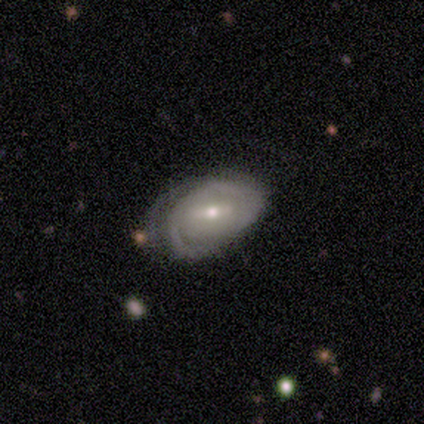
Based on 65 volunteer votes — Smooth or featured? featured or disk (74%)
Edge-on disk? no (96%)
Bar? weak (54%)
Spiral arms? yes (76%)
Spiral winding? tight (66%)
Spiral arm count? 2 (43%)
Bulge size? moderate (52%)
Merging? minor disturbance (45%)